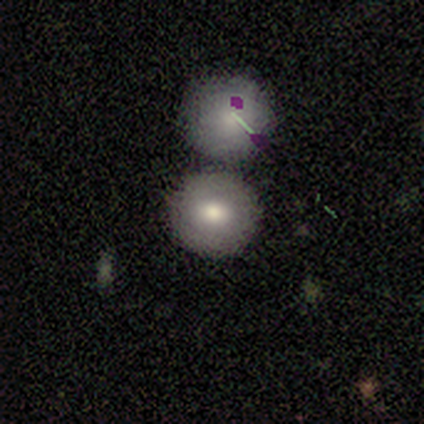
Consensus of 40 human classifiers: Smooth or featured?
  - smooth: 70% *
  - featured or disk: 20%
  - star or artifact: 10%
How rounded?
  - round: 86% *
  - in between: 14%
  - cigar-shaped: 0%
Merging?
  - none: 44% * (tied)
  - merger: 44% * (tied)
  - minor disturbance: 8%
  - major disturbance: 3%